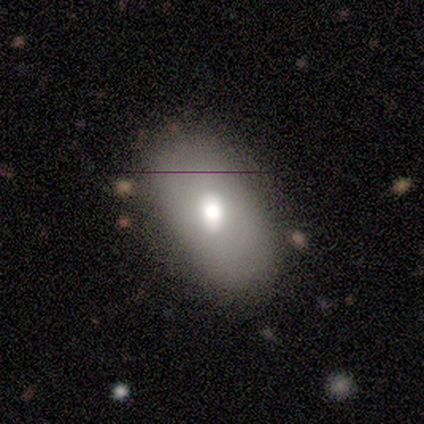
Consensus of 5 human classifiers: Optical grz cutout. It shows a smooth galaxy with no disk features (60%) that is in between round and cigar-shaped (67%). Merging: minor disturbance (60%).